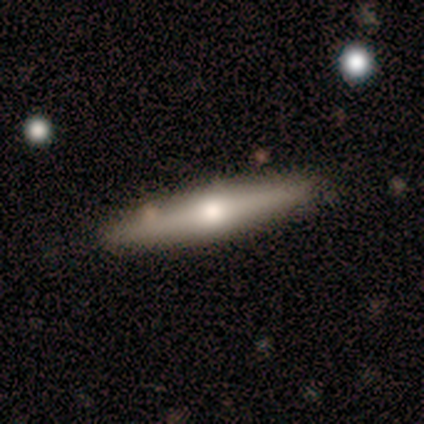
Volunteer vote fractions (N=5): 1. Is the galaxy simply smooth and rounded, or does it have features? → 60% smooth, 40% featured or disk, 0% star or artifact.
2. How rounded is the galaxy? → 67% in between, 33% cigar-shaped, 0% round.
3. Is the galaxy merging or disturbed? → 100% none, 0% minor disturbance, 0% major disturbance, 0% merger.